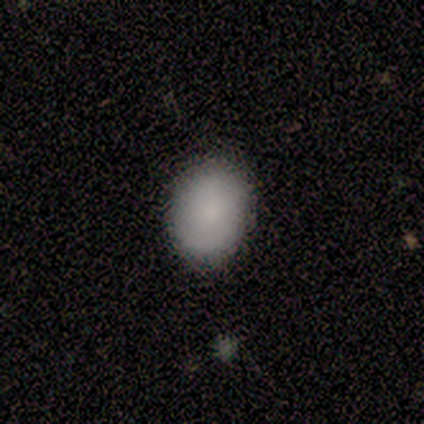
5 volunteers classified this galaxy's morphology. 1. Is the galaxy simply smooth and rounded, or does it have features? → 60% smooth, 20% featured or disk, 20% star or artifact.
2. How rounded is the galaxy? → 67% in between, 33% round, 0% cigar-shaped.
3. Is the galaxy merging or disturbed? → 100% none, 0% minor disturbance, 0% major disturbance, 0% merger.